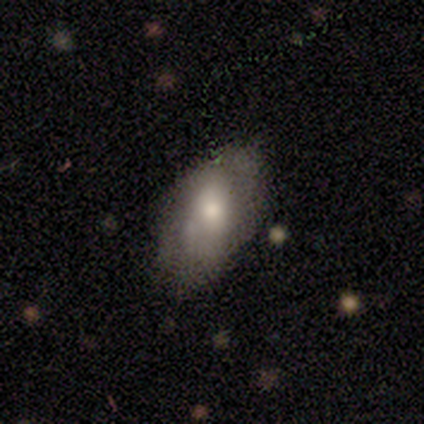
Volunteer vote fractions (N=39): Smooth or featured?
  - smooth: 62% *
  - featured or disk: 36%
  - star or artifact: 3%
How rounded?
  - in between: 96% *
  - round: 4%
  - cigar-shaped: 0%
Merging?
  - none: 39% *
  - minor disturbance: 21%
  - major disturbance: 13%
  - merger: 3%